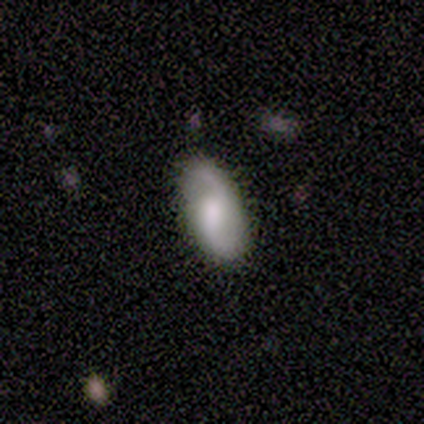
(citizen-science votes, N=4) Smooth or featured?
  - smooth: 75% *
  - featured or disk: 25%
  - star or artifact: 0%
How rounded?
  - in between: 100% *
  - round: 0%
  - cigar-shaped: 0%
Merging?
  - none: 75% *
  - minor disturbance: 25%
  - major disturbance: 0%
  - merger: 0%